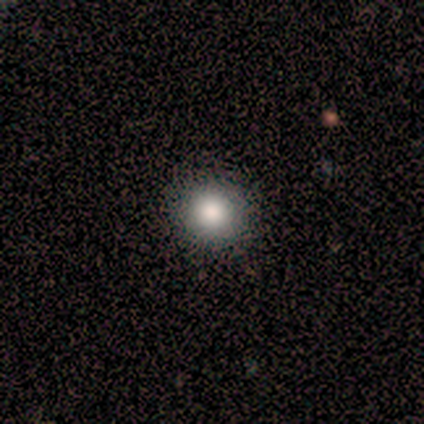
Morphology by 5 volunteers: smooth 80%, star or artifact 20%, featured or disk 0%. Down the decision tree: how rounded — round (100%); merging — none (100%).